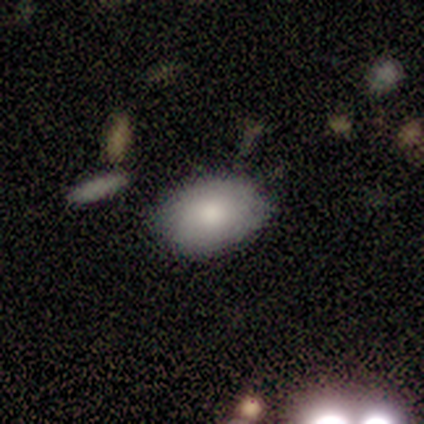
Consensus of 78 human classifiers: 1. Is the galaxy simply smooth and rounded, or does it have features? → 82% smooth, 14% featured or disk, 4% star or artifact.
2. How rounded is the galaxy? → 81% in between, 19% round, 0% cigar-shaped.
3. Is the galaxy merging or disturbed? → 53% none, 13% minor disturbance, 4% merger, 1% major disturbance.